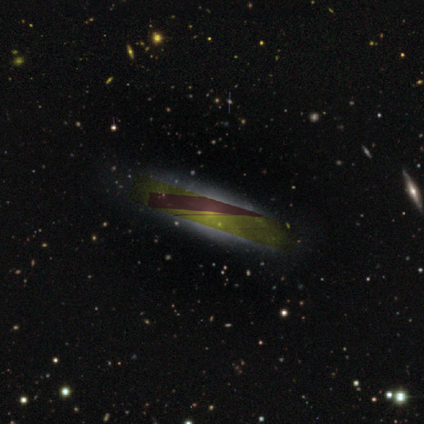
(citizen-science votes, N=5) smooth-or-featured: star or artifact: 80% | featured or disk: 20% | smooth: 0%